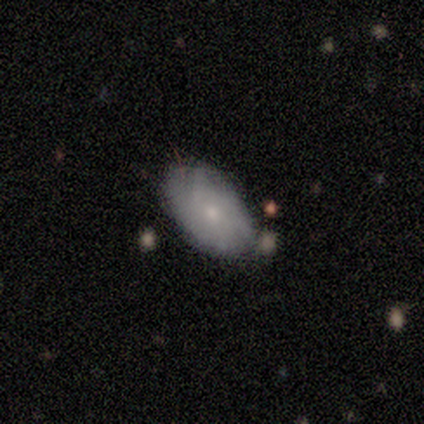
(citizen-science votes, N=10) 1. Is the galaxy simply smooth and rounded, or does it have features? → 50% smooth (tied), 50% featured or disk (tied), 0% star or artifact.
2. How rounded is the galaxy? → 100% in between, 0% round, 0% cigar-shaped.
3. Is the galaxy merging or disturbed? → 80% none, 10% minor disturbance, 10% major disturbance, 0% merger.